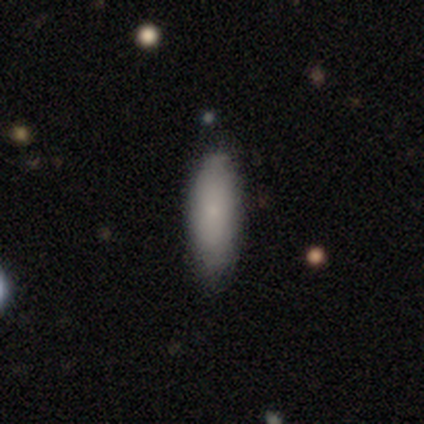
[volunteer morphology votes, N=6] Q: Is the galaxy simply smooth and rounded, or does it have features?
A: smooth — 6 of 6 (100%).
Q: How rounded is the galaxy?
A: in between — 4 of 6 (67%).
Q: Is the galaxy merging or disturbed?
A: none — 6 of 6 (100%).